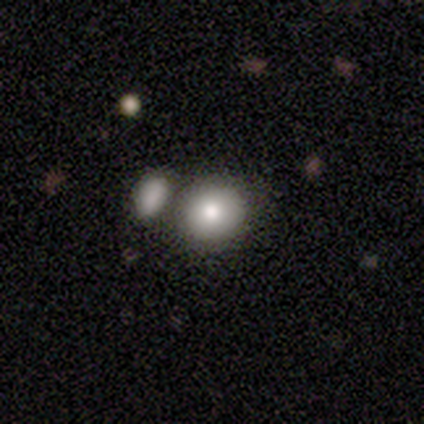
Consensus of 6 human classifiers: This is clearly a smooth galaxy (83%). How rounded: clearly round (100%). Merging: possibly none (50%, tied with merger).